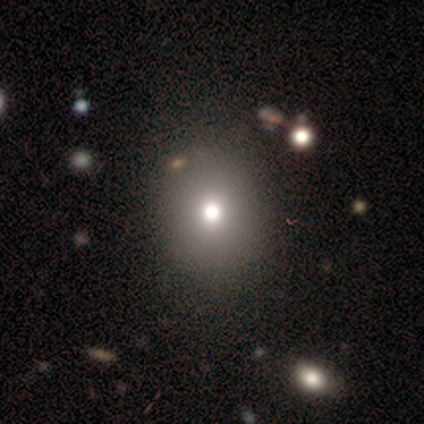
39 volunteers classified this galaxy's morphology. Smooth or featured?
  - smooth: 74% *
  - star or artifact: 23%
  - featured or disk: 3%
How rounded?
  - round: 69% *
  - in between: 31%
  - cigar-shaped: 0%
Merging?
  - none: 63% *
  - minor disturbance: 3%
  - major disturbance: 3%
  - merger: 3%